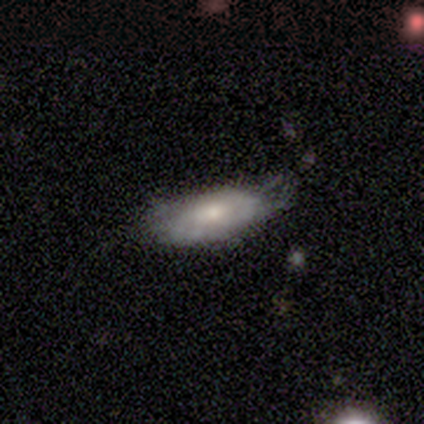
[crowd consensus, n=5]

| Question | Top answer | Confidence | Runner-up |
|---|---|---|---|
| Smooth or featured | featured or disk | 80% | smooth (20%) |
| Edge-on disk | no | 75% | yes (25%) |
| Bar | no | 67% | weak (33%) |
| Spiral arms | yes | 100% | — |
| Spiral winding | tight | 100% | — |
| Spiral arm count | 1 | 33% | tied: 2 (33%), can't tell (33%) |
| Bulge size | moderate | 100% | — |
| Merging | none | 60% | minor disturbance (40%) |